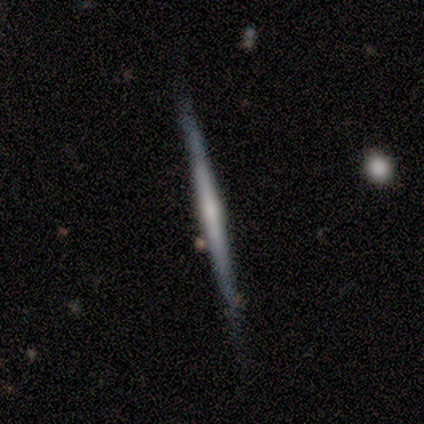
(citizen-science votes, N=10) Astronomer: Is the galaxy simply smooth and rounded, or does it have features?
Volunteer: featured or disk — 60%.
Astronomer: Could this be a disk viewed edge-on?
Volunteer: yes — 100%.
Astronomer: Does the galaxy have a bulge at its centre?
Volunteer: boxy — 33%, tied with none and rounded at 33%.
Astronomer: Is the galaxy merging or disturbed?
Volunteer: none — 89%.